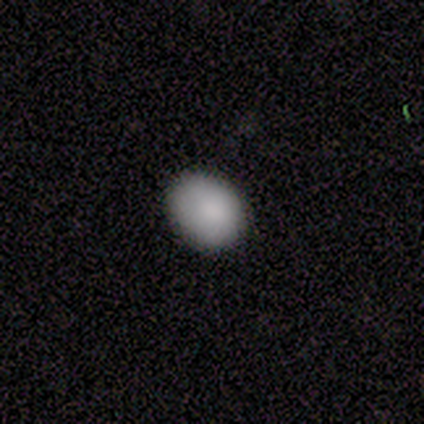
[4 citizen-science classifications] Smooth or featured?
  - smooth: 100% *
  - featured or disk: 0%
  - star or artifact: 0%
How rounded?
  - round: 50% * (tied)
  - in between: 50% * (tied)
  - cigar-shaped: 0%
Merging?
  - none: 100% *
  - minor disturbance: 0%
  - major disturbance: 0%
  - merger: 0%